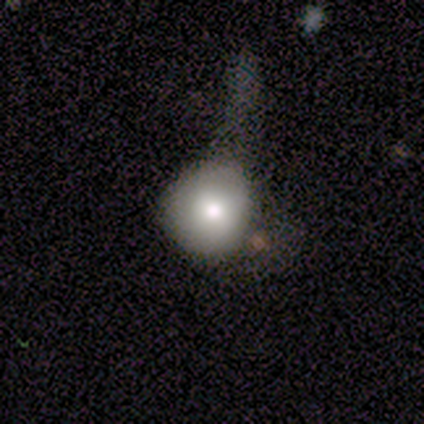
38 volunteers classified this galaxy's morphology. Q: Smooth or featured?
A: smooth (79%); runner-up: star or artifact (13%)
Q: How rounded?
A: round (83%); runner-up: in between (17%)
Q: Merging?
A: major disturbance (42%); runner-up: none (27%)